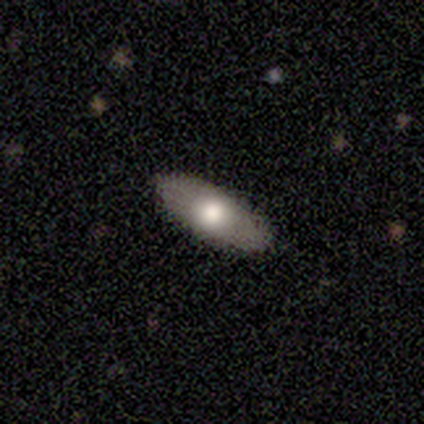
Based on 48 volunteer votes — Smooth or featured? 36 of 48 (75%) said smooth. How rounded? 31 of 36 (86%) said in between. Merging? 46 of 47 (98%) said none.